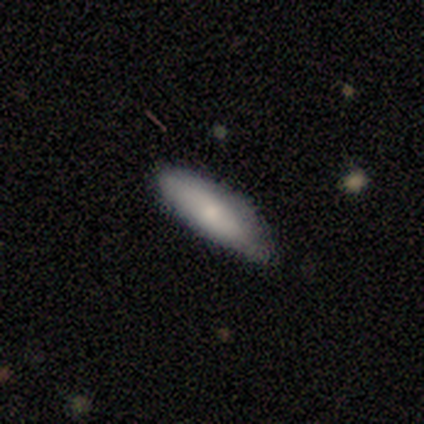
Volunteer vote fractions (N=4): Morphology: type=smooth (75%); roundness=in between (67%); merging=none (75%).